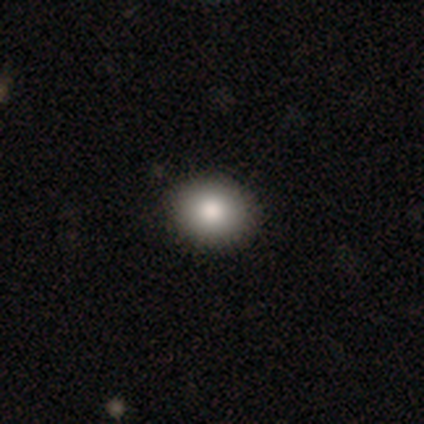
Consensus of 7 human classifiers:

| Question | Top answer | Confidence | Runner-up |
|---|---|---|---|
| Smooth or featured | smooth | 100% | — |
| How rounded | round | 86% | in between (14%) |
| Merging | none | 86% | minor disturbance (14%) |